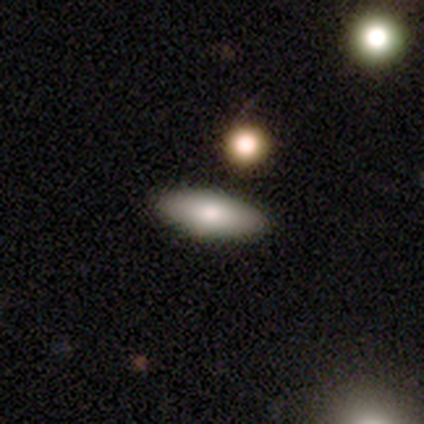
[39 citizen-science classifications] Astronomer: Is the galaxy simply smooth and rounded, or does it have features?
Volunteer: smooth — 69%.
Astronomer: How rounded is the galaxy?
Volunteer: in between — 81%.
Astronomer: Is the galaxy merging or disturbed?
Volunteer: none — 63%.